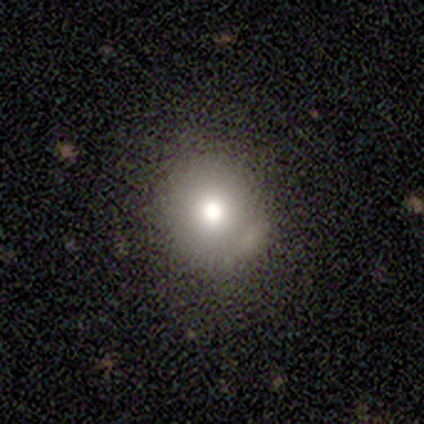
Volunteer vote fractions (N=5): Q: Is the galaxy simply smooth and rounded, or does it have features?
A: smooth — 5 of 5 (100%).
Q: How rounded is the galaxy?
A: round — 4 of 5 (80%).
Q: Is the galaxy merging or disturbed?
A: none — 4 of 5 (80%).